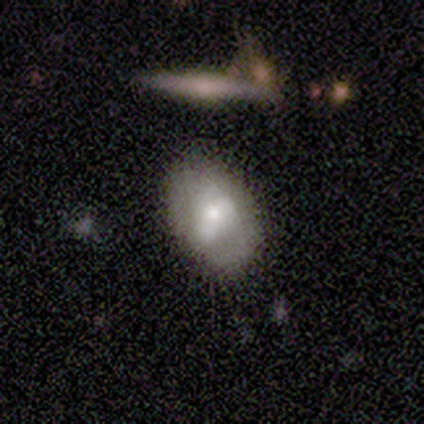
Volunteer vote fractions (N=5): Volunteers were most divided on "merging": none: 60%, minor disturbance: 20%, merger: 20%, major disturbance: 0%. More confident: how rounded — in between (100%); smooth or featured — smooth (80%).